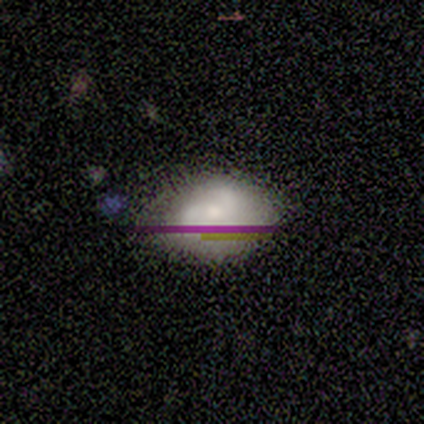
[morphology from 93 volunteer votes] A smooth galaxy with no disk features (40%) that is in between round and cigar-shaped (70%).

Vote fractions:
- Smooth or featured? smooth: 40% / featured or disk: 38% / star or artifact: 23%
- How rounded? in between: 70% / round: 22% / cigar-shaped: 8%
- Merging? none: 53% / minor disturbance: 29% / major disturbance: 11% / merger: 7%